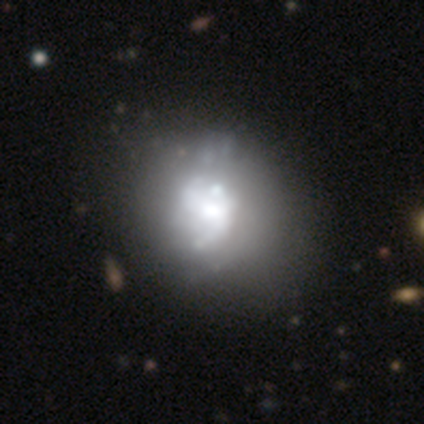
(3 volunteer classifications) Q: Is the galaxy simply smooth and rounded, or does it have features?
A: smooth — 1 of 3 (33%, tied with featured or disk and star or artifact).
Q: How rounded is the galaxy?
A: in between — 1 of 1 (100%).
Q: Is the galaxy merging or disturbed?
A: none — 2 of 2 (100%).